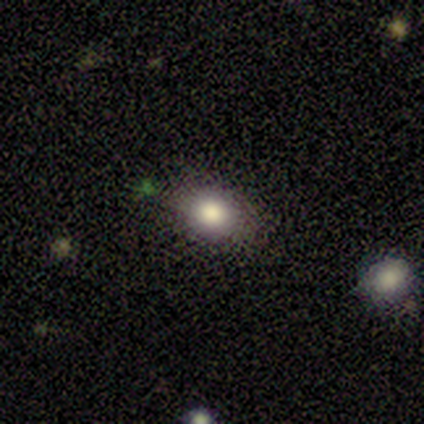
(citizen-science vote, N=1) Overall: featured or disk (100%). Edge-on disk: no (100%). Bar: no (100%). Spiral arms: no (100%). Bulge size: large (100%). Merging: merger (100%).